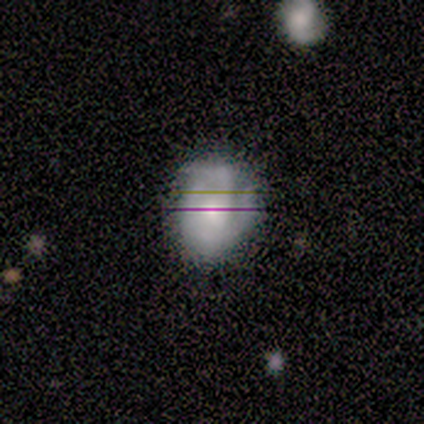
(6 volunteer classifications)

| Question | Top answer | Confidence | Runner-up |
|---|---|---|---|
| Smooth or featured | featured or disk | 67% | smooth (17%) |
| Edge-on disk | no | 100% | — |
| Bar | no | 75% | weak (25%) |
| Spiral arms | yes | 100% | — |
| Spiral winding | medium | 75% | tight (25%) |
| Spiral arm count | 2 | 50% | 3 (25%) |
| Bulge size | moderate | 100% | — |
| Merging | none | 60% | minor disturbance (40%) |